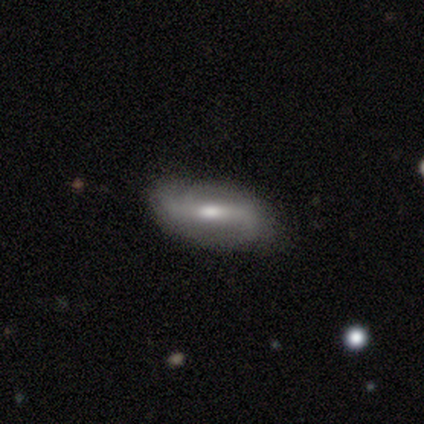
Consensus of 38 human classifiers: Volunteers were most divided on "bar": strong: 43%, weak: 38%, no: 19%. More confident: edge-on disk — no (91%); spiral arm count — 2 (82%); spiral arms — yes (81%); merging — none (72%); bulge size — moderate (62%); smooth or featured — featured or disk (61%); spiral winding — loose (59%).